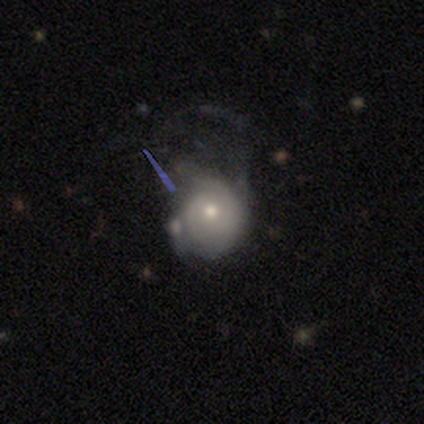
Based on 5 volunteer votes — smooth_or_featured: featured or disk (p=0.80) [alt: smooth p=0.20]
disk_edge_on: no (p=1.00)
bar: no (p=0.75) [alt: weak p=0.25]
has_spiral_arms: yes (p=1.00)
spiral_winding: medium (p=1.00)
spiral_arm_count: 2 (p=0.50) [alt: 3 p=0.25]
bulge_size: small (p=0.75) [alt: moderate p=0.25]
merging: minor disturbance (p=0.60) [alt: major disturbance p=0.40]